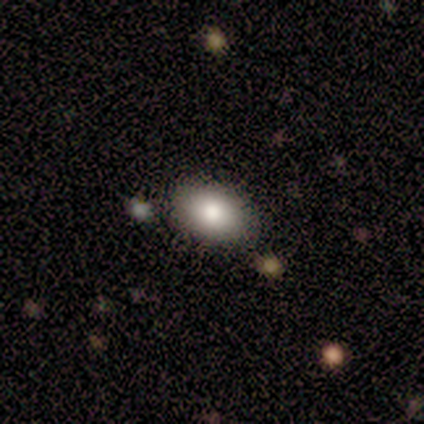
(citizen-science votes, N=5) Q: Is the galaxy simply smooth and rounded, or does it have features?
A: smooth — 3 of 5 (60%).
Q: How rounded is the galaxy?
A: in between — 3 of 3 (100%).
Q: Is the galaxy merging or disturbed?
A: none — 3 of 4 (75%).